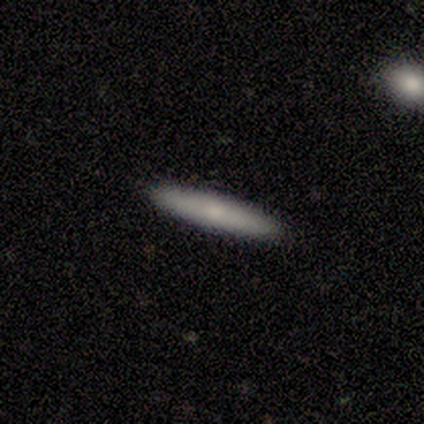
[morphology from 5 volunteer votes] Smooth or featured?
  - smooth: 60% *
  - featured or disk: 40%
  - star or artifact: 0%
How rounded?
  - cigar-shaped: 100% *
  - round: 0%
  - in between: 0%
Merging?
  - none: 100% *
  - minor disturbance: 0%
  - major disturbance: 0%
  - merger: 0%